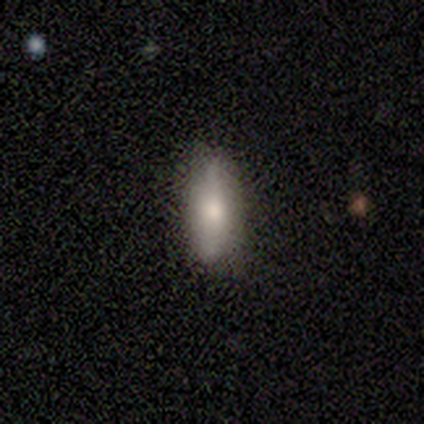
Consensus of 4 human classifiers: Smooth or featured? 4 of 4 (100%) said smooth. How rounded? 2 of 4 (50%, tied with cigar-shaped) said in between. Merging? 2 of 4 (50%, tied with minor disturbance) said none.